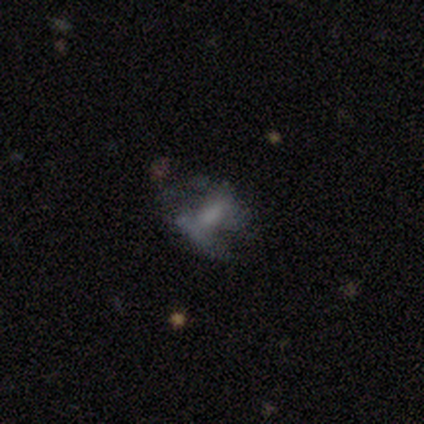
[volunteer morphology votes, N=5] Smooth or featured: featured or disk — 80% (smooth — 20%)
Edge-on disk: no — 100%
Bar: no — 100%
Spiral arms: no — 100%
Bulge size: none — 75% (large — 25%)
Merging: none — 40% (tied with major disturbance — 40%)